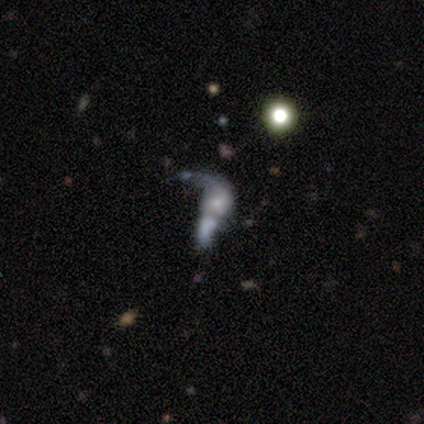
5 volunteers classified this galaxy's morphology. Overall: smooth (40%, tied with featured or disk). How rounded: in between (100%). Merging: minor disturbance (50%; none 25%).